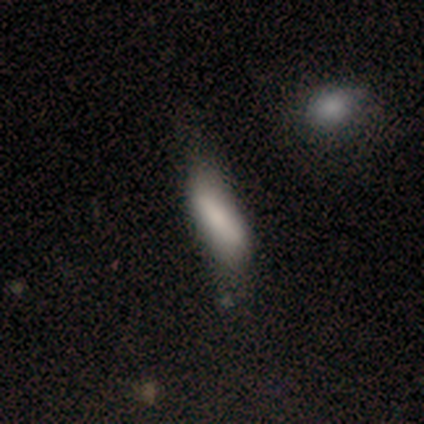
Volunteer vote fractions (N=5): smooth 40% (tied), featured or disk 40% (tied), star or artifact 20%. Down the decision tree: how rounded — in between (100%); merging — minor disturbance (100%).